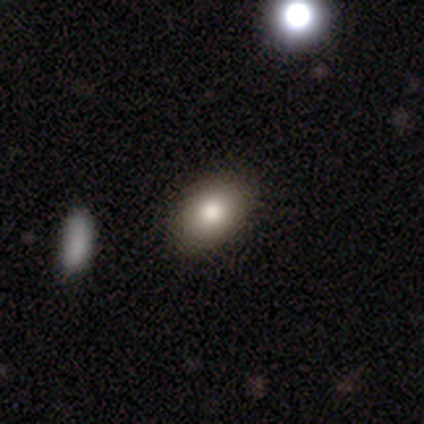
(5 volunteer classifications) A smooth galaxy with no disk features (100%) that is in between round and cigar-shaped (100%). Merging: none (80%).